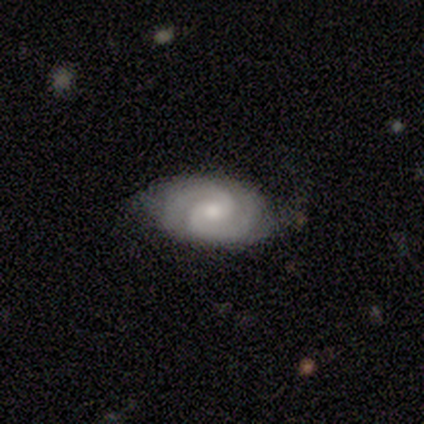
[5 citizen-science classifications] Volunteers were most divided on "merging" (2-way tie): none: 40%, major disturbance: 40%, minor disturbance: 20%, merger: 0%. More confident: smooth or featured — featured or disk (100%); edge-on disk — no (100%); spiral arms — yes (100%); spiral arm count — 2 (100%); bulge size — moderate (80%); spiral winding — medium (60%); bar — no (60%).